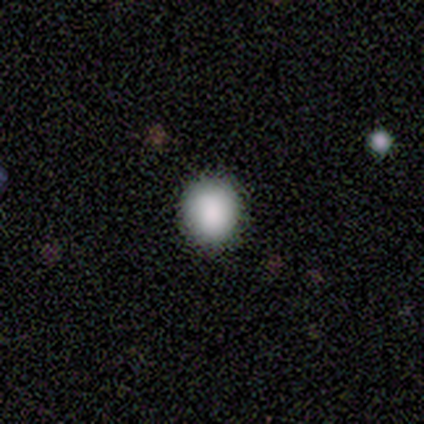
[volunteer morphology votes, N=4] type=smooth (75%); roundness=round (100%); merging=none (100%).